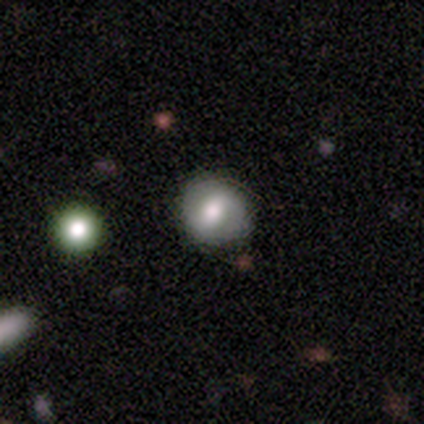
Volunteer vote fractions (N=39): This appears to be a smooth galaxy with no disk features (51%) that is round (85%). Merging: none (80%).